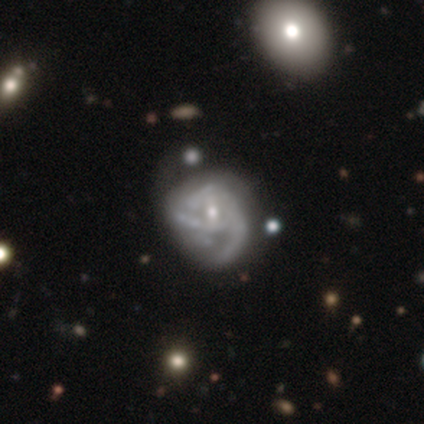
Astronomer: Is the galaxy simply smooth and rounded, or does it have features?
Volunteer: featured or disk — 100%.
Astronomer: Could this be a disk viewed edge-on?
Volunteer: no — 100%.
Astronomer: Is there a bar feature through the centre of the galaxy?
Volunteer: no — 60% (runner-up: weak, 40%).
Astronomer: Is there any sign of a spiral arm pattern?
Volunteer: yes — 100%.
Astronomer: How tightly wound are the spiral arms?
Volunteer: loose — 60% (runner-up: tight, 40%).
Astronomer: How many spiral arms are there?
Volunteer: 3 — 40%, tied with can't tell at 40%.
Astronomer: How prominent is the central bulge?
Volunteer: moderate — 60% (runner-up: small, 40%).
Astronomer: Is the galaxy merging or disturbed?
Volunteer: minor disturbance — 60%.